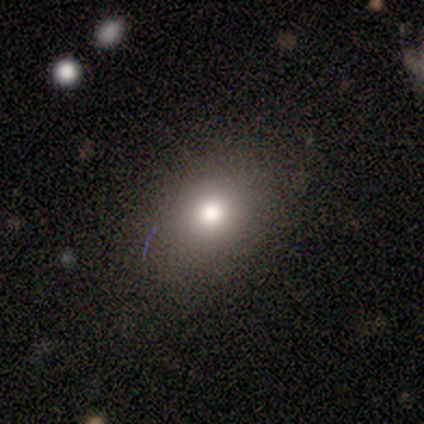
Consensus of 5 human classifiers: Volunteers were most divided on "smooth or featured": smooth: 60%, featured or disk: 20%, star or artifact: 20%. More confident: how rounded — in between (100%); merging — none (75%).